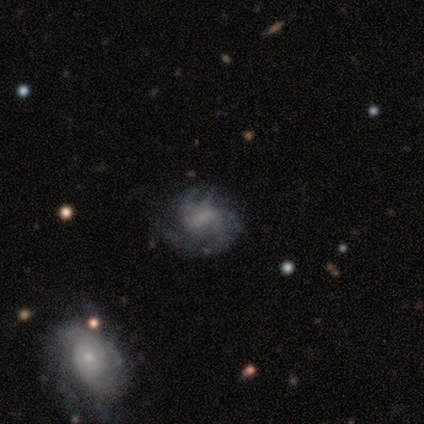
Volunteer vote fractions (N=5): Smooth or featured? featured or disk (100%)
Edge-on disk? no (100%)
Bar? weak (60%)
Spiral arms? yes (100%)
Spiral winding? medium (80%)
Spiral arm count? can't tell (40%)
Bulge size? moderate (80%)
Merging? none (100%)